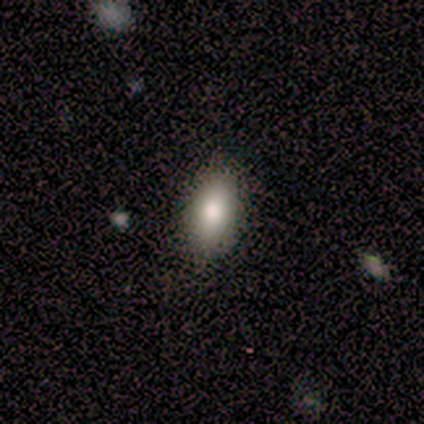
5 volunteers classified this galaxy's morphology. This appears to be a smooth galaxy with no disk features (80%) that is in between round and cigar-shaped (100%). Merging: none (100%).